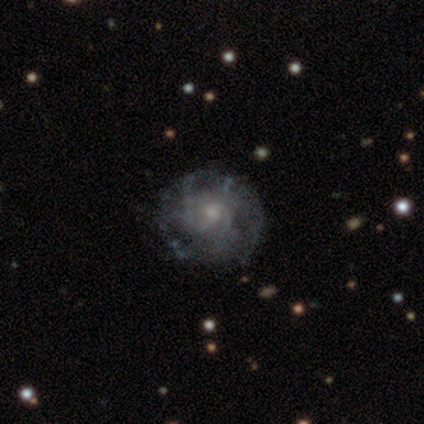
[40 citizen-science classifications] A featured or disk galaxy (78%) with no bar (70%), tight (50%) spiral arms (67%) and a small central bulge (70%).

Vote fractions:
- Smooth or featured? featured or disk: 78% / smooth: 18% / star or artifact: 5%
- Edge-on disk? no: 97% / yes: 3%
- Bar? no: 70% / weak: 30% / strong: 0%
- Spiral arms? yes: 67% / no: 33%
- Spiral winding? tight: 50% / medium: 35% / loose: 15%
- Spiral arm count? can't tell: 60% / 3: 20% / 2: 15% / more than 4: 5% / 1: 0% / 4: 0%
- Bulge size? small: 70% / moderate: 17% / none: 10% / large: 3% / dominant: 0%
- Merging? none: 74% / minor disturbance: 18% / major disturbance: 8% / merger: 0%